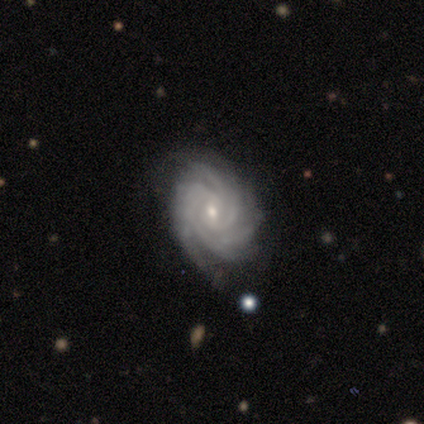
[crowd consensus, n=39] smooth-or-featured: featured or disk: 95% | smooth: 3% | star or artifact: 3%
  disk-edge-on: no: 100% | yes: 0%
    bar: no: 51% | weak: 41% | strong: 8%
    has-spiral-arms: yes: 100% | no: 0%
      spiral-winding: tight: 70% | medium: 30% | loose: 0%
      spiral-arm-count: 4: 38% | more than 4: 32% | 3: 16% | can't tell: 14% | 1: 0% | 2: 0%
    bulge-size: small: 76% | moderate: 22% | large: 3% | dominant: 0% | none: 0%
  merging: none: 74% | minor disturbance: 24% | merger: 3% | major disturbance: 0%